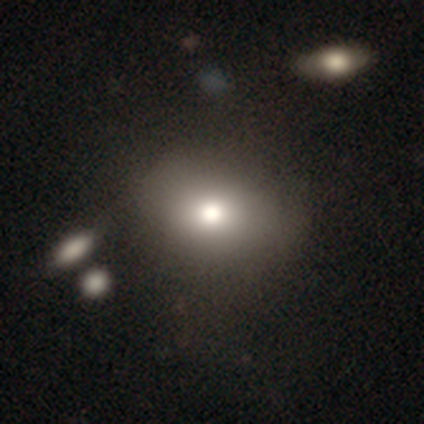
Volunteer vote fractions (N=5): smooth_or_featured: smooth (p=1.00)
how_rounded: in between (p=0.60) [alt: round p=0.40]
merging: none (p=0.80) [alt: merger p=0.20]